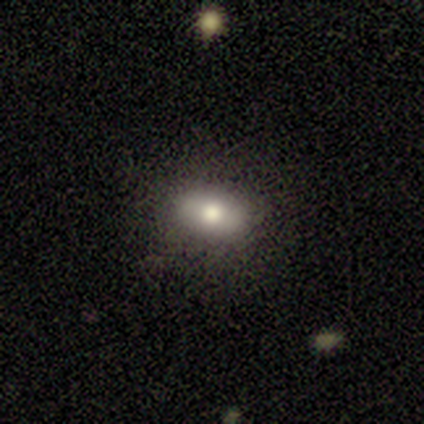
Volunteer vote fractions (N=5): smooth_or_featured: smooth (p=0.80) [alt: featured or disk p=0.20]
how_rounded: in between (p=0.75) [alt: cigar-shaped p=0.25]
merging: none (p=1.00)